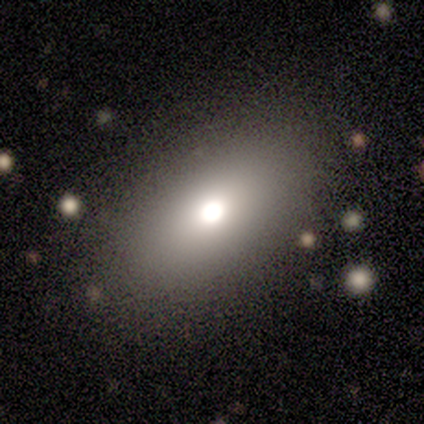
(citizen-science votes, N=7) This is possibly a smooth galaxy (57%). How rounded: clearly in between (100%). Merging: clearly none (86%).